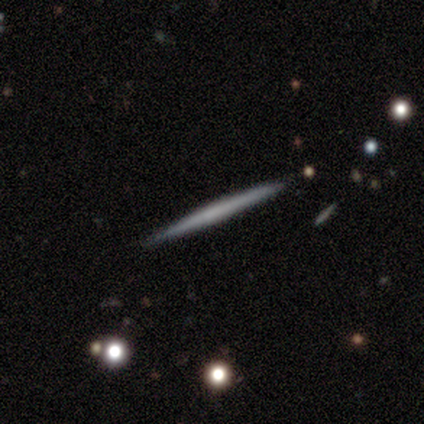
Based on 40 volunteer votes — Volunteers were most divided on "smooth or featured": featured or disk: 50%, smooth: 48%, star or artifact: 2%. More confident: edge-on disk — yes (100%); edge-on bulge — none (95%); merging — none (87%).